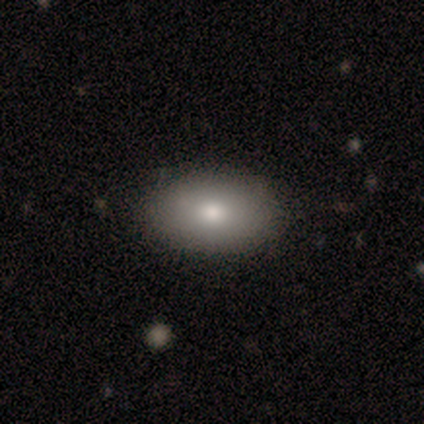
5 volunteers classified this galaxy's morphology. A smooth galaxy with no disk features (60%) that is in between round and cigar-shaped (100%). Merging: none (100%).